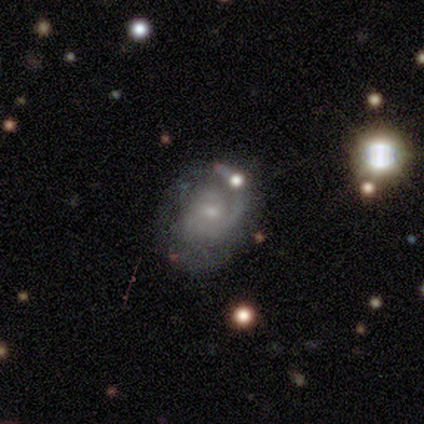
This appears to be a featured or disk galaxy (98%) with no bar (76%), 1 (61%) tight (53%) spiral arms (95%) and a small central bulge (74%). Merging: none (42%).